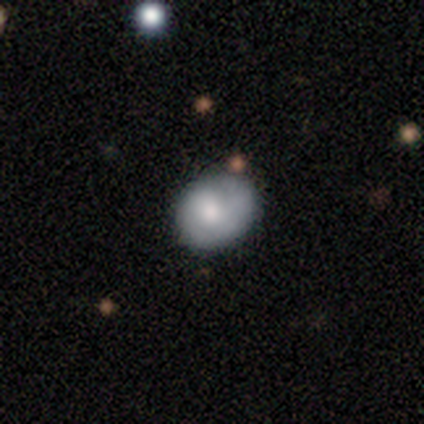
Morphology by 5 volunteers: type=featured or disk (60%); edge-on=no (100%); bar=no (100%); spiral arms=yes (67%); winding=tight (100%); arm count=1 (100%); bulge=large (33%, tied with moderate and small); merging=none (80%).